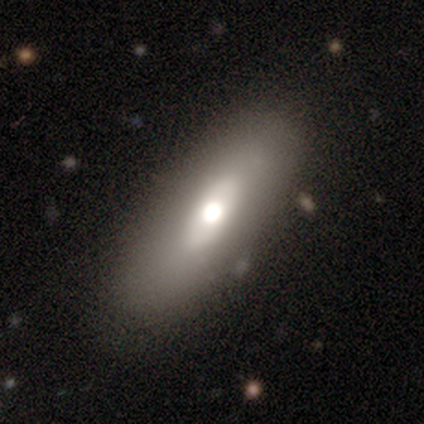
This is possibly a smooth galaxy (54%). How rounded: possibly in between (59%). Merging: likely none (74%).